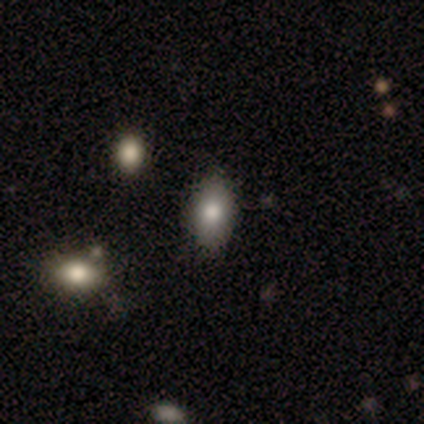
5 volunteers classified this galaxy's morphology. Smooth or featured? 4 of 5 (80%) said smooth. How rounded? 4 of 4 (100%) said in between. Merging? 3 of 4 (75%) said none.